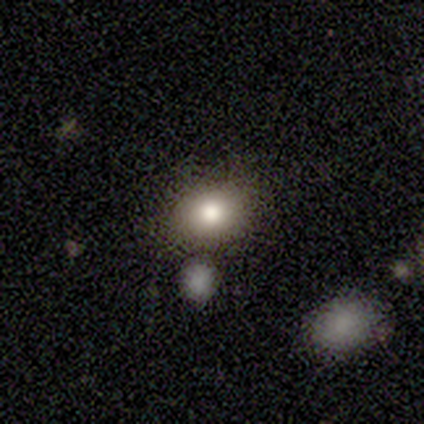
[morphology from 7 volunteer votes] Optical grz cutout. It shows a smooth galaxy with no disk features (57%) that is in between round and cigar-shaped (75%). Merging: none (67%).